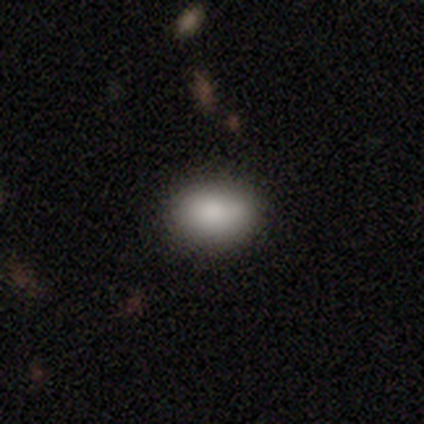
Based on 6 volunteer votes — Morphology: type=smooth (83%); roundness=in between (60%); merging=none (67%).